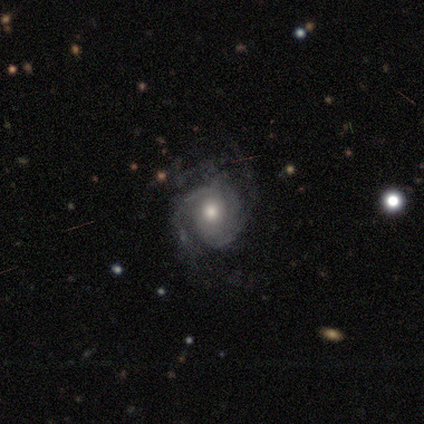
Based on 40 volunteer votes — smooth-or-featured: featured or disk: 88% | smooth: 12% | star or artifact: 0%
  disk-edge-on: no: 97% | yes: 3%
    bar: no: 82% | weak: 15% | strong: 3%
    has-spiral-arms: yes: 88% | no: 12%
      spiral-winding: tight: 53% | medium: 30% | loose: 17%
      spiral-arm-count: 2: 37% (tied) | can't tell: 37% (tied) | 3: 23% | 4: 3% | 1: 0% | more than 4: 0%
    bulge-size: moderate: 76% | large: 12% | small: 6% | dominant: 3% | none: 3%
  merging: none: 57% | minor disturbance: 12% | major disturbance: 5% | merger: 5%